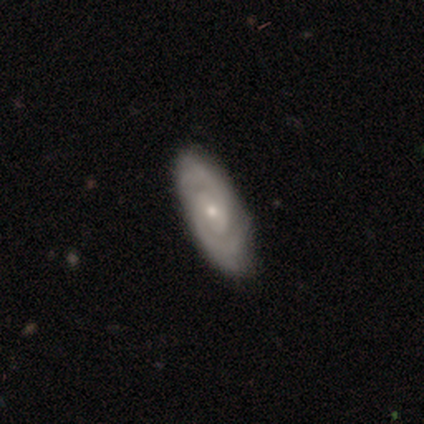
Smooth or featured?
  - featured or disk: 80% *
  - smooth: 20%
  - star or artifact: 0%
Edge-on disk?
  - no: 75% *
  - yes: 25%
Bar?
  - no: 100% *
  - strong: 0%
  - weak: 0%
Spiral arms?
  - yes: 100% *
  - no: 0%
Spiral winding?
  - tight: 67% *
  - medium: 33%
  - loose: 0%
Spiral arm count?
  - 2: 100% *
  - 1: 0%
  - 3: 0%
  - 4: 0%
  - more than 4: 0%
  - can't tell: 0%
Bulge size?
  - small: 67% *
  - moderate: 33%
  - dominant: 0%
  - large: 0%
  - none: 0%
Merging?
  - none: 80% *
  - minor disturbance: 20%
  - major disturbance: 0%
  - merger: 0%